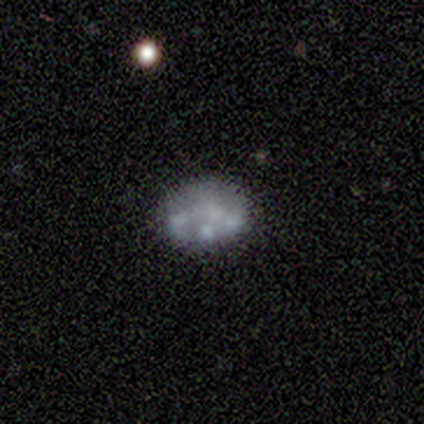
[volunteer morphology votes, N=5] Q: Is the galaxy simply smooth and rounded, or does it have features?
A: featured or disk — 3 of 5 (60%).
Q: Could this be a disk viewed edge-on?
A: no — 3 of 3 (100%).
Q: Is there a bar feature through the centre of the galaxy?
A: no — 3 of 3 (100%).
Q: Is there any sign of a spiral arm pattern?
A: no — 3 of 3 (100%).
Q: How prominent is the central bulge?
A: none — 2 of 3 (67%).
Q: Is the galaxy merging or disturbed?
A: none — 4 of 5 (80%).